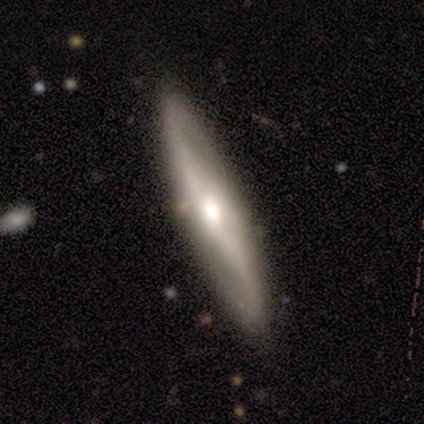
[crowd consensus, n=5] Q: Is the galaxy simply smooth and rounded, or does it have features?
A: smooth — 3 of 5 (60%).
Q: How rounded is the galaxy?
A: cigar-shaped — 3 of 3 (100%).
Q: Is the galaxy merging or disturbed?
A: none — 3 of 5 (60%).